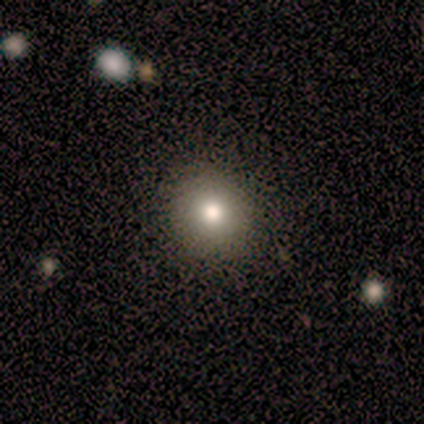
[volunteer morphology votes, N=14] Q: Smooth or featured?
A: smooth (86%); runner-up: featured or disk (7%)
Q: How rounded?
A: round (92%); runner-up: in between (8%)
Q: Merging?
A: none (92%); runner-up: minor disturbance (8%)